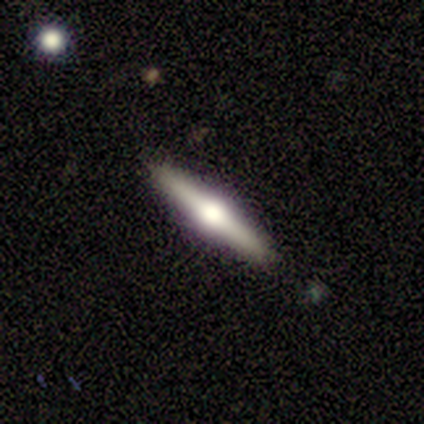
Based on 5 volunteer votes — Smooth or featured?
  - featured or disk: 80% *
  - smooth: 20%
  - star or artifact: 0%
Edge-on disk?
  - yes: 100% *
  - no: 0%
Edge-on bulge?
  - rounded: 100% *
  - boxy: 0%
  - none: 0%
Merging?
  - none: 100% *
  - minor disturbance: 0%
  - major disturbance: 0%
  - merger: 0%